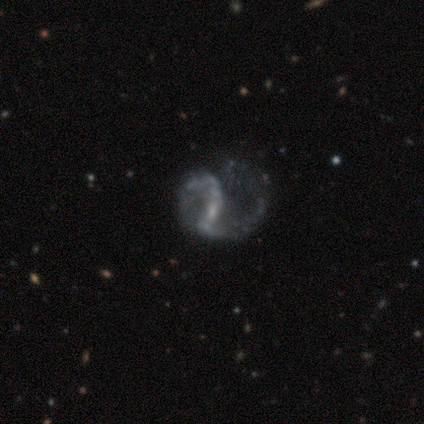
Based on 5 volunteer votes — This is clearly a featured or disk galaxy (80%). It is clearly not viewed edge-on (100%). Bar: possibly strong (50%, tied with weak). Spiral arm pattern: clearly yes (100%). Spiral arm count: clearly 2 (100%). Spiral winding: likely loose (75%). Central bulge: possibly moderate (50%). Merging: likely major disturbance (75%).